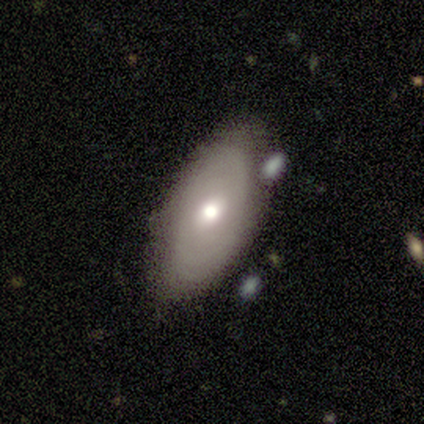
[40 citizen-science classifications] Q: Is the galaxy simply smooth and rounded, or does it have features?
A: smooth — 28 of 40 (70%).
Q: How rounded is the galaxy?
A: in between — 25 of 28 (89%).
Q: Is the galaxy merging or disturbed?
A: none — 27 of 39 (69%).